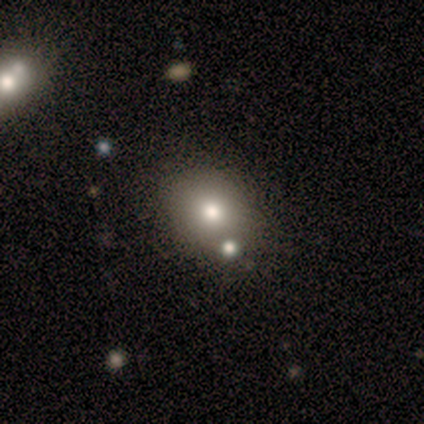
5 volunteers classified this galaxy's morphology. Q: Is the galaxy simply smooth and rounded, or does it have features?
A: smooth — 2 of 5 (40%, tied with star or artifact).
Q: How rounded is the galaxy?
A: round — 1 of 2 (50%, tied with in between).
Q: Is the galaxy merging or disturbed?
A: none — 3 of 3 (100%).